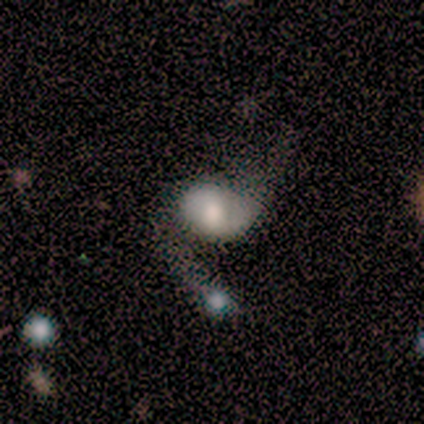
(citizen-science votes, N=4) Smooth or featured?
  - smooth: 75% *
  - featured or disk: 25%
  - star or artifact: 0%
How rounded?
  - in between: 67% *
  - round: 33%
  - cigar-shaped: 0%
Merging?
  - merger: 50% *
  - none: 25%
  - major disturbance: 25%
  - minor disturbance: 0%